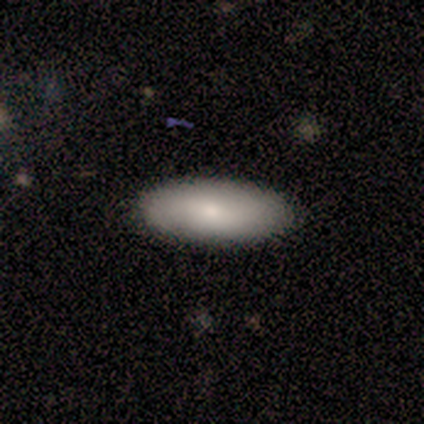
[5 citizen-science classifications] A smooth galaxy with no disk features (60%) that is in between round and cigar-shaped (100%).

Vote fractions:
- Smooth or featured? smooth: 60% / star or artifact: 40% / featured or disk: 0%
- How rounded? in between: 100% / round: 0% / cigar-shaped: 0%
- Merging? none: 67% / minor disturbance: 33% / major disturbance: 0% / merger: 0%